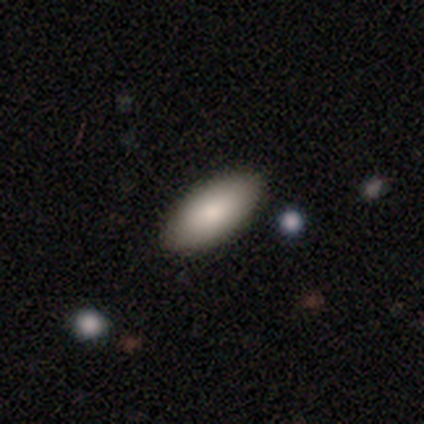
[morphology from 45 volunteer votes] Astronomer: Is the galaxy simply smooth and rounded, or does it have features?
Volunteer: smooth — 87%.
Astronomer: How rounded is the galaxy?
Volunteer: in between — 95%.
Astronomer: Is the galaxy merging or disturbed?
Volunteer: none — 90%.